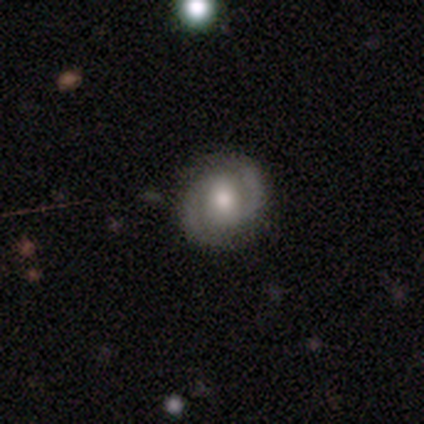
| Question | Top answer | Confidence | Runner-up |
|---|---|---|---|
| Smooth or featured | featured or disk | 78% | smooth (16%) |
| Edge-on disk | no | 98% | yes (2%) |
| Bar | no | 51% | weak (33%) |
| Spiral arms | yes | 97% | no (3%) |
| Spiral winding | medium | 61% | tight (37%) |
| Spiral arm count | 2 | 97% | 3 (3%) |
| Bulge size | moderate | 72% | large (13%) |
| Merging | none | 90% | minor disturbance (8%) |